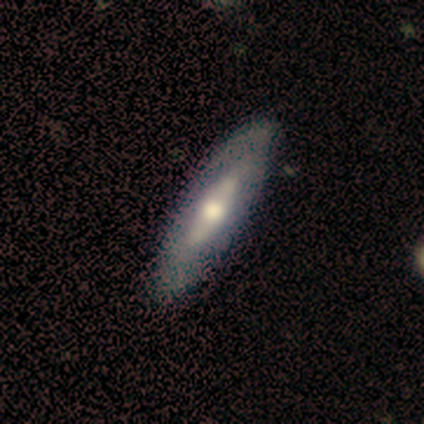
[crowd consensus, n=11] This appears to be a featured or disk galaxy (64%) with no bar (50%), tight (100%) spiral arms (50%, tied with no) and a large central bulge (50%, tied with moderate). Merging: none (82%).